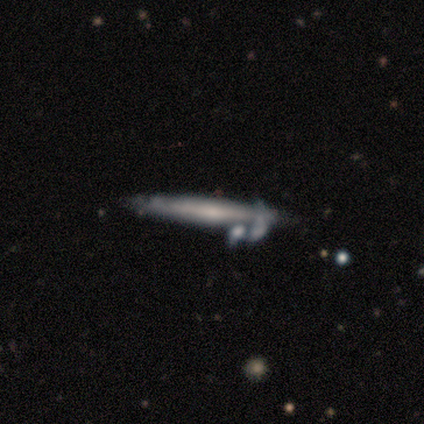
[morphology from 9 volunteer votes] type=featured or disk (67%); edge-on=yes (67%); edge-on bulge=none (75%); merging=merger (83%).